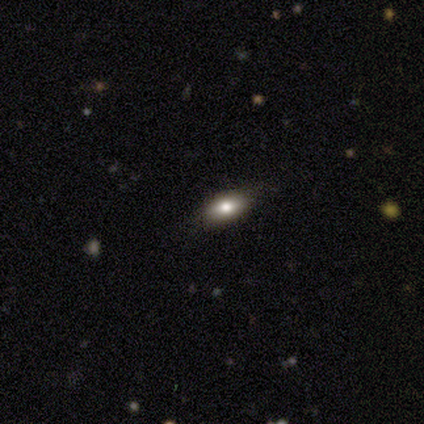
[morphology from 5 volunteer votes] Smooth or featured: smooth — 60% (featured or disk — 20%)
How rounded: in between — 100%
Merging: none — 100%